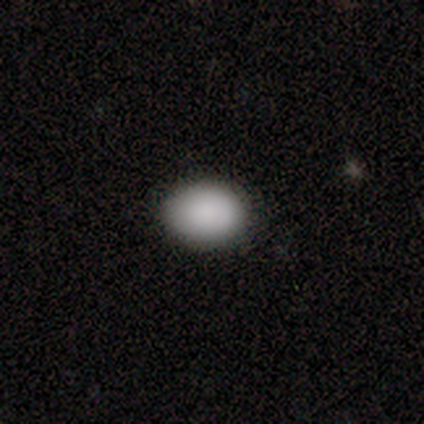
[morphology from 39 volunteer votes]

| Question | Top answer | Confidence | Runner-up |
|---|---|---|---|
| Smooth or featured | smooth | 85% | featured or disk (13%) |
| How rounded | in between | 67% | round (33%) |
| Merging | none | 89% | minor disturbance (8%) |